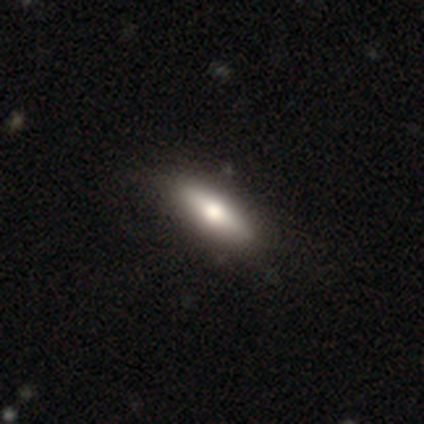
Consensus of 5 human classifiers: A smooth galaxy with no disk features (60%) that is cigar-shaped (67%).

Vote fractions:
- Smooth or featured? smooth: 60% / featured or disk: 40% / star or artifact: 0%
- How rounded? cigar-shaped: 67% / in between: 33% / round: 0%
- Merging? none: 80% / minor disturbance: 20% / major disturbance: 0% / merger: 0%